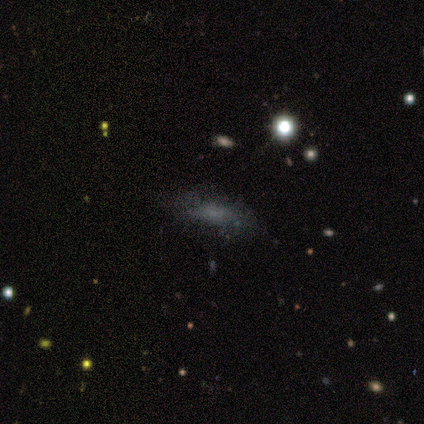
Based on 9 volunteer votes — Morphology: type=featured or disk (44%); edge-on=no (100%); bar=no (100%); spiral arms=no (75%); bulge=none (50%); merging=none (67%).